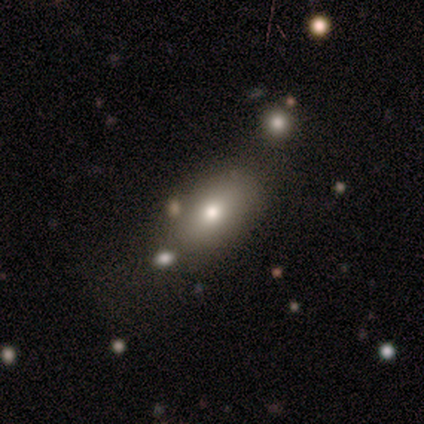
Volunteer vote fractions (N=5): Volunteers were most divided on "merging": none: 50%, minor disturbance: 25%, merger: 25%, major disturbance: 0%. More confident: how rounded — round (67%); smooth or featured — smooth (60%).